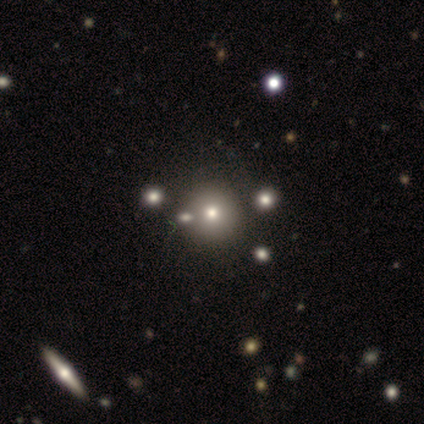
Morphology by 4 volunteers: A smooth galaxy with no disk features (50%) that is round (100%).

Vote fractions:
- Smooth or featured? smooth: 50% / featured or disk: 25% / star or artifact: 25%
- How rounded? round: 100% / in between: 0% / cigar-shaped: 0%
- Merging? none: 100% / minor disturbance: 0% / major disturbance: 0% / merger: 0%